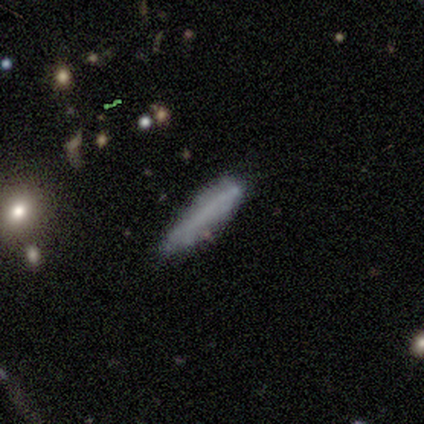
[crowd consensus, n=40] Q: Smooth or featured?
A: smooth (72%); runner-up: featured or disk (15%)
Q: How rounded?
A: cigar-shaped (97%); runner-up: in between (3%)
Q: Merging?
A: none (74%); runner-up: minor disturbance (23%)